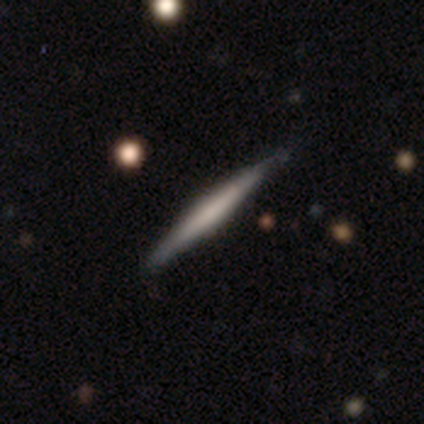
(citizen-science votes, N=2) Overall: smooth (50%, tied with star or artifact). How rounded: cigar-shaped (100%). Merging: minor disturbance (100%).